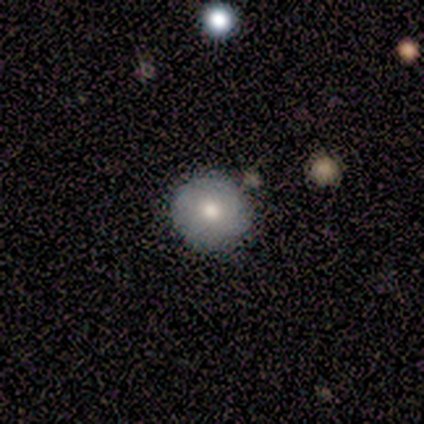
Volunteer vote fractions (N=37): Smooth or featured? 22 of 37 (59%) said smooth. How rounded? 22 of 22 (100%) said round. Merging? 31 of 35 (89%) said none.